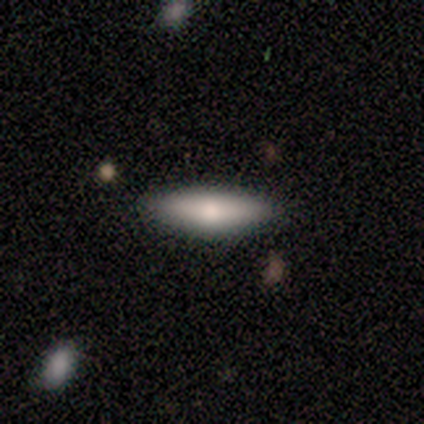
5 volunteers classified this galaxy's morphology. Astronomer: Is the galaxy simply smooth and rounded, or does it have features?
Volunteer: smooth — 80%.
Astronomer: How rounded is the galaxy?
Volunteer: in between — 100%.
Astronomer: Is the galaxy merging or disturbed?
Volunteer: none — 100%.